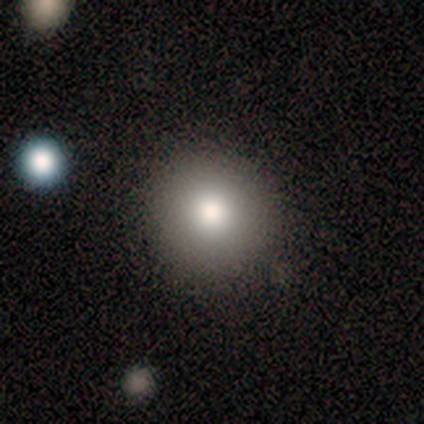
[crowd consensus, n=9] Smooth or featured?
  - smooth: 89% *
  - star or artifact: 11%
  - featured or disk: 0%
How rounded?
  - round: 88% *
  - in between: 12%
  - cigar-shaped: 0%
Merging?
  - none: 62% *
  - minor disturbance: 38%
  - major disturbance: 0%
  - merger: 0%